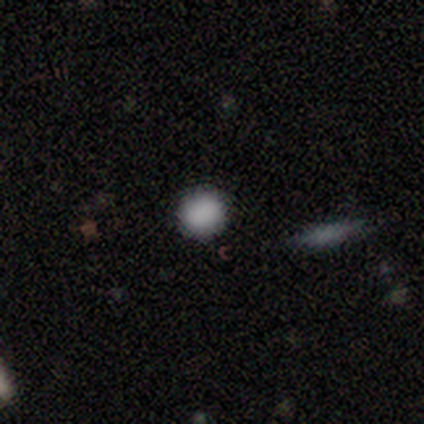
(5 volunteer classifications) Q: Smooth or featured?
A: smooth (80%); runner-up: featured or disk (20%)
Q: How rounded?
A: round (75%); runner-up: in between (25%)
Q: Merging?
A: none (100%)